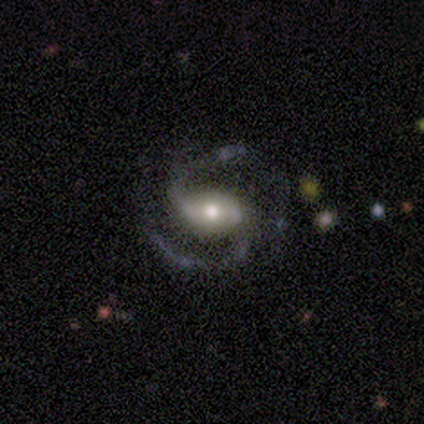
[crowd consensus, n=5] Morphology: type=featured or disk (100%); edge-on=no (100%); bar=strong (80%); spiral arms=yes (100%); winding=medium (40%, tied with loose); arm count=2 (100%); bulge=moderate (80%); merging=none (60%).